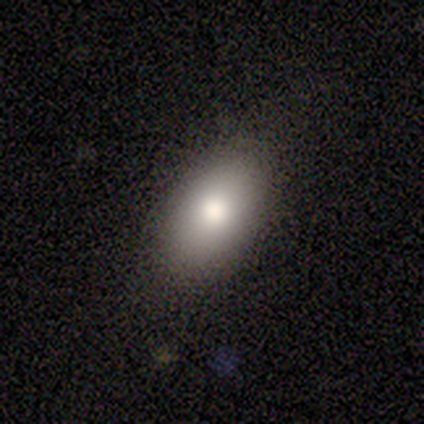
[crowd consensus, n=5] Smooth or featured? 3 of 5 (60%) said smooth. How rounded? 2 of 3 (67%) said in between. Merging? 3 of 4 (75%) said none.